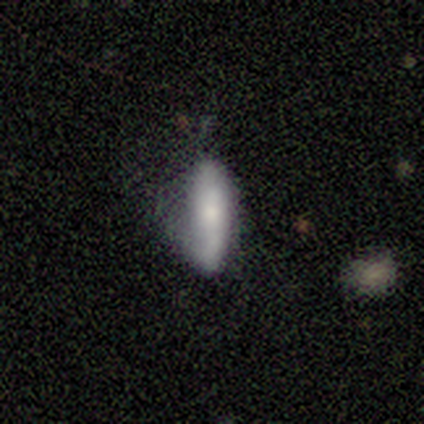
Smooth or featured? 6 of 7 (86%) said smooth. How rounded? 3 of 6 (50%, tied with cigar-shaped) said in between. Merging? 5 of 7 (71%) said none.